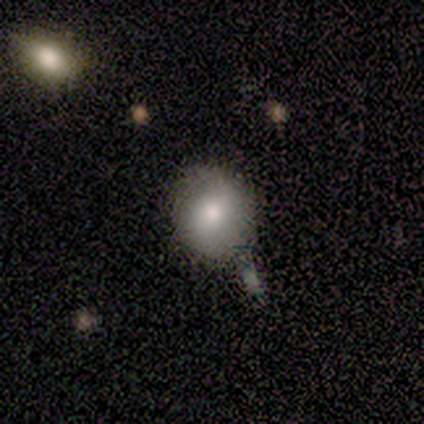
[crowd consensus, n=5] This appears to be a smooth galaxy with no disk features (60%) that is round (67%). Merging: minor disturbance (60%).